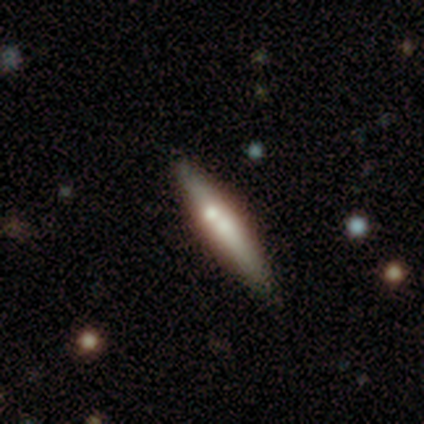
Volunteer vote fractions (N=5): Overall: featured or disk (80%). Edge-on disk: yes (100%). Edge-on bulge: rounded (50%; boxy 25%). Merging: none (100%).